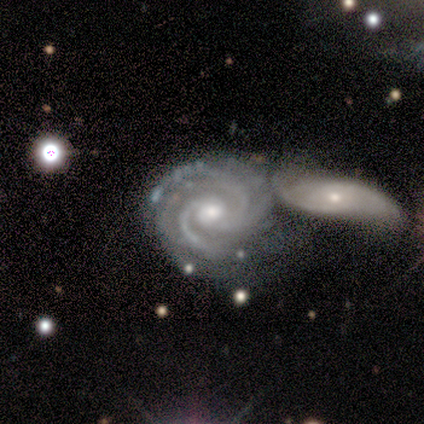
This is clearly a featured or disk galaxy (98%). It is clearly not viewed edge-on (98%). Bar: likely no (67%). Spiral arm pattern: clearly yes (100%). Spiral arm count: marginally 3 (37%). Spiral winding: likely tight (63%). Central bulge: clearly moderate (84%). Merging: possibly merger (52%).